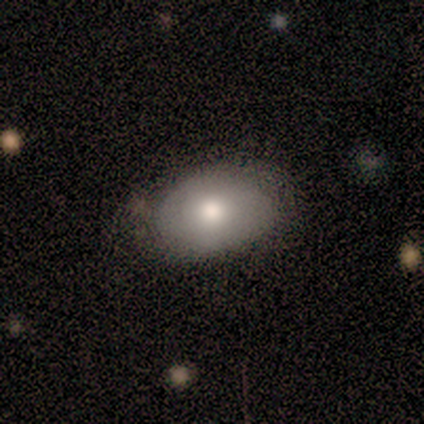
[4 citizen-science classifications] Smooth or featured?
  - smooth: 75% *
  - featured or disk: 25%
  - star or artifact: 0%
How rounded?
  - in between: 67% *
  - round: 33%
  - cigar-shaped: 0%
Merging?
  - none: 100% *
  - minor disturbance: 0%
  - major disturbance: 0%
  - merger: 0%